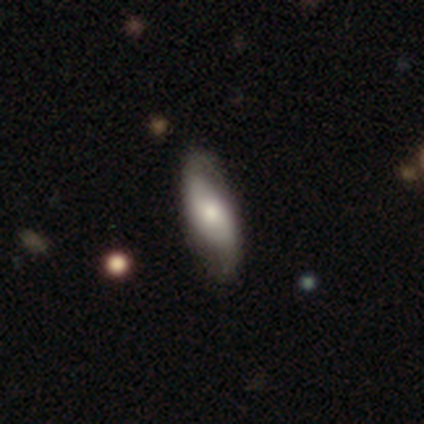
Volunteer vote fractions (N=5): This appears to be a featured or disk galaxy (60%) with no bar (100%), 2 (100%) loose (100%) spiral arms (100%) and a moderate central bulge (50%, tied with small). Merging: none (60%).